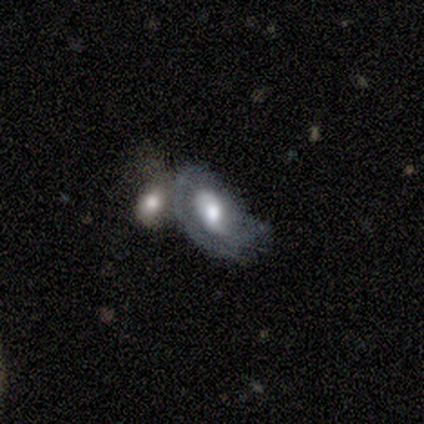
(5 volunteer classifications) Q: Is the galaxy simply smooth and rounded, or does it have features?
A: smooth — 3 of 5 (60%).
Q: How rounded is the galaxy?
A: in between — 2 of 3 (67%).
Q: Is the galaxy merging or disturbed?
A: merger — 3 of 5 (60%).